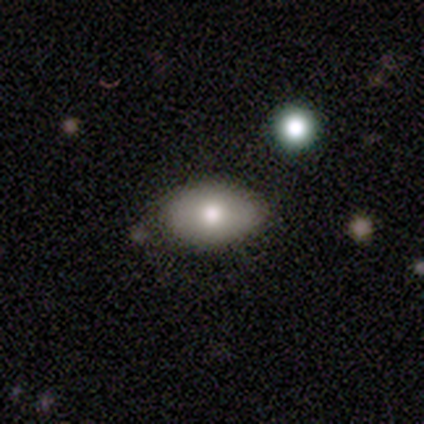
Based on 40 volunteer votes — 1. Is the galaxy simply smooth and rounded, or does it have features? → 72% smooth, 20% featured or disk, 8% star or artifact.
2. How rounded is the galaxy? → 100% in between, 0% round, 0% cigar-shaped.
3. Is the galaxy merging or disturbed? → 78% none, 19% minor disturbance, 3% major disturbance, 0% merger.